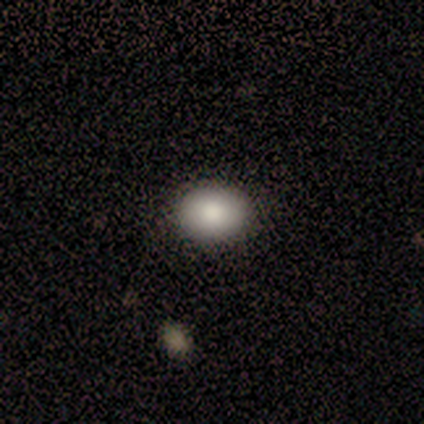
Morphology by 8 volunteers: smooth_or_featured: smooth (p=0.88) [alt: featured or disk p=0.12]
how_rounded: in between (p=0.71) [alt: round p=0.29]
merging: none (p=1.00)